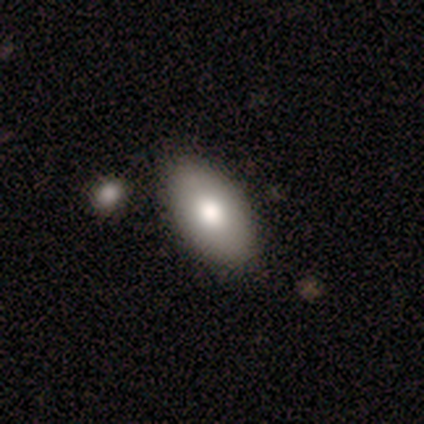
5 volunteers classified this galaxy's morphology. Smooth or featured?
  - smooth: 100% *
  - featured or disk: 0%
  - star or artifact: 0%
How rounded?
  - in between: 100% *
  - round: 0%
  - cigar-shaped: 0%
Merging?
  - none: 80% *
  - minor disturbance: 20%
  - major disturbance: 0%
  - merger: 0%